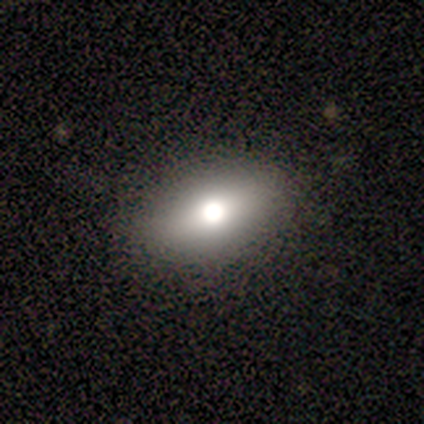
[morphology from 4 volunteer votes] Smooth or featured? smooth (50%)
How rounded? in between (50%, tied with cigar-shaped)
Merging? none (100%)